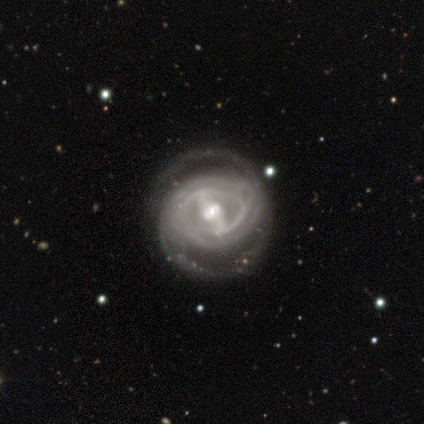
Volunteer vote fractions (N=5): Smooth or featured? 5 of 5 (100%) said featured or disk. Edge-on disk? 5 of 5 (100%) said no. Bar? 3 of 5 (60%) said strong. Spiral arms? 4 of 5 (80%) said yes. Spiral winding? 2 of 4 (50%) said tight. Spiral arm count? 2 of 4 (50%) said 2. Bulge size? 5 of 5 (100%) said moderate. Merging? 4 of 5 (80%) said none.